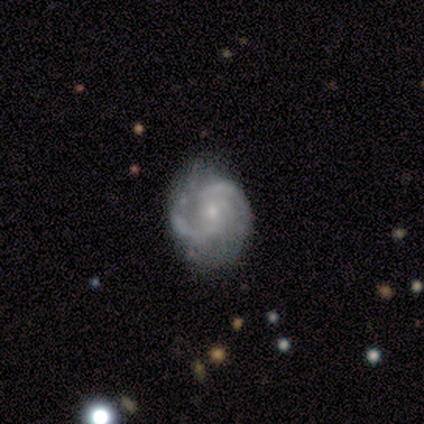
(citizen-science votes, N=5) Smooth or featured: featured or disk — 80% (smooth — 20%)
Edge-on disk: no — 100%
Bar: weak — 50% (tied with no — 50%)
Spiral arms: yes — 100%
Spiral winding: medium — 75% (tight — 25%)
Spiral arm count: 2 — 75% (can't tell — 25%)
Bulge size: small — 100%
Merging: none — 100%